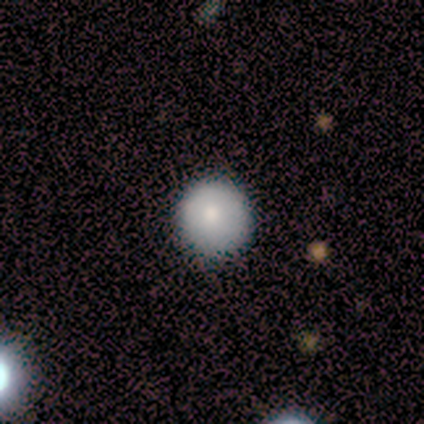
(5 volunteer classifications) Q: Smooth or featured?
A: smooth (100%)
Q: How rounded?
A: round (100%)
Q: Merging?
A: none (100%)